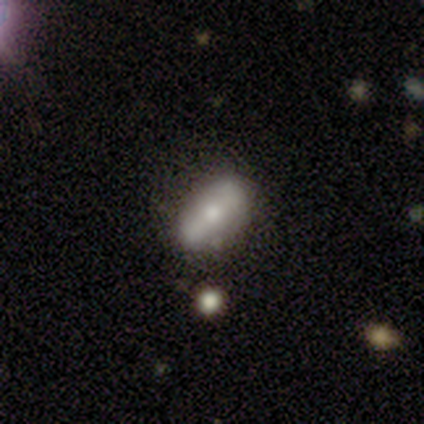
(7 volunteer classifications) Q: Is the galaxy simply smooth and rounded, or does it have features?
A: smooth — 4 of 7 (57%).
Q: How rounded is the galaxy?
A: in between — 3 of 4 (75%).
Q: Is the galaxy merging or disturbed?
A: none — 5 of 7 (71%).